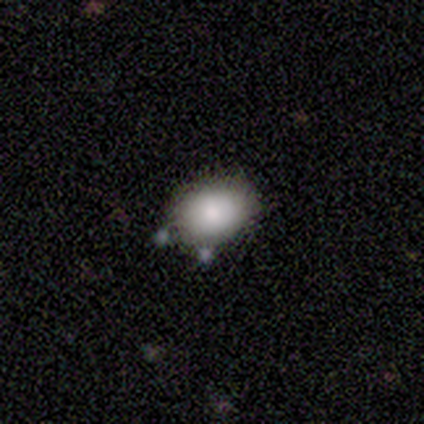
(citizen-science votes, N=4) Smooth or featured?
  - smooth: 50% * (tied)
  - featured or disk: 50% * (tied)
  - star or artifact: 0%
How rounded?
  - round: 50% * (tied)
  - in between: 50% * (tied)
  - cigar-shaped: 0%
Merging?
  - none: 50% *
  - minor disturbance: 25%
  - merger: 25%
  - major disturbance: 0%